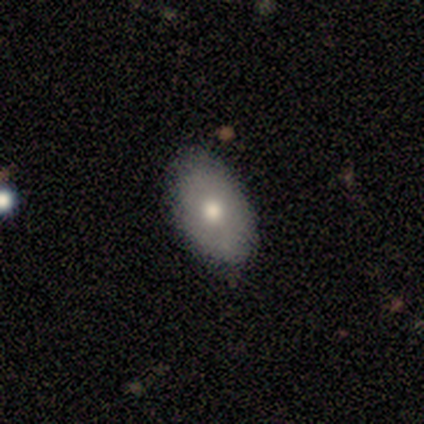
smooth_or_featured: smooth (p=1.00)
how_rounded: in between (p=1.00)
merging: none (p=0.80) [alt: minor disturbance p=0.20]